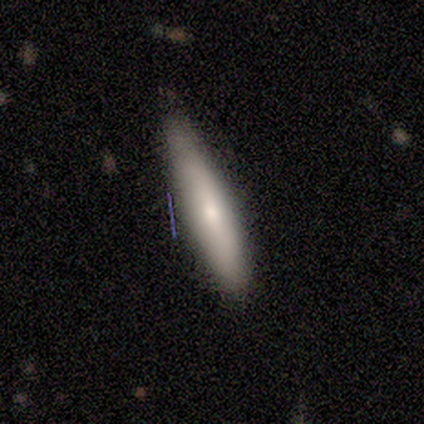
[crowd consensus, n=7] Smooth or featured: smooth — 71% (featured or disk — 29%)
How rounded: cigar-shaped — 80% (in between — 20%)
Merging: none — 71% (minor disturbance — 29%)